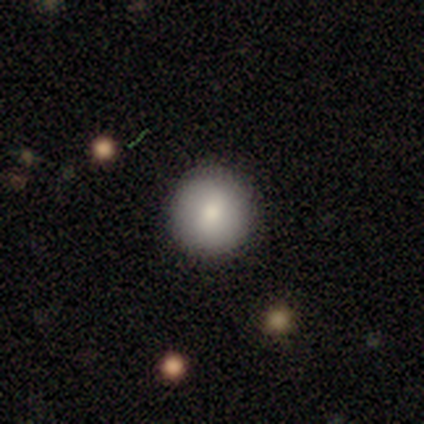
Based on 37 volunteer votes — smooth-or-featured: smooth: 86% | star or artifact: 8% | featured or disk: 5%
  how-rounded: round: 97% | in between: 3% | cigar-shaped: 0%
  merging: none: 91% | minor disturbance: 9% | major disturbance: 0% | merger: 0%